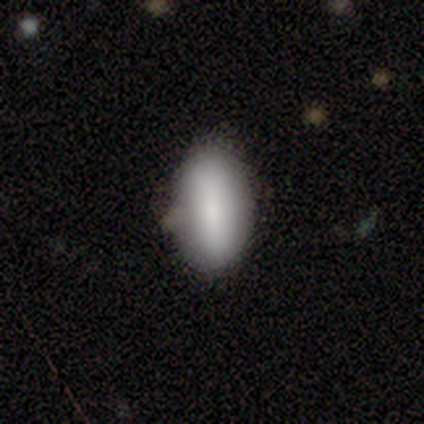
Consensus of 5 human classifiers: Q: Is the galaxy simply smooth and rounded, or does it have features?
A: star or artifact — 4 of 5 (80%).